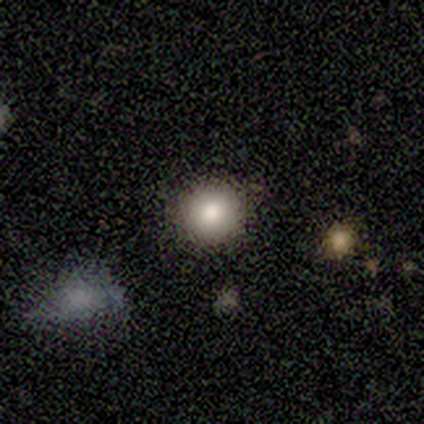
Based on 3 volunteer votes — smooth_or_featured: smooth (p=1.00)
how_rounded: round (p=1.00)
merging: none (p=1.00)